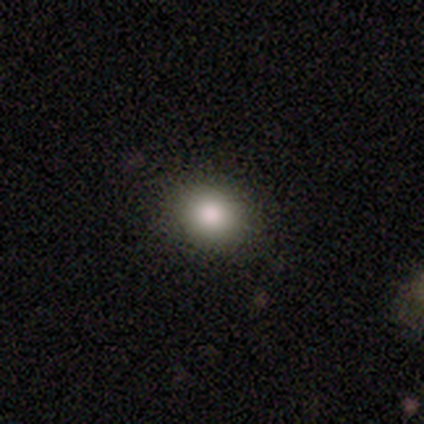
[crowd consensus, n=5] Q: Smooth or featured?
A: smooth (80%); runner-up: star or artifact (20%)
Q: How rounded?
A: round (50%); tied with: in between (50%)
Q: Merging?
A: none (50%); tied with: minor disturbance (50%)